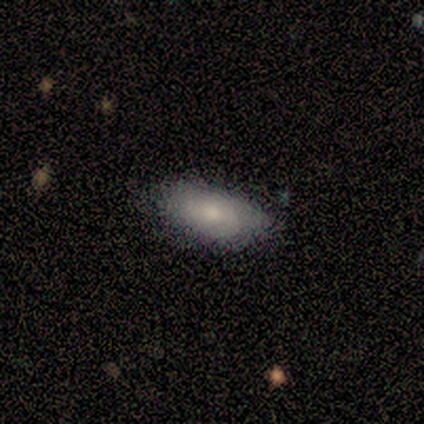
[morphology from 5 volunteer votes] smooth_or_featured: smooth (p=0.60) [alt: featured or disk p=0.40]
how_rounded: in between (p=1.00)
merging: none (p=0.80) [alt: minor disturbance p=0.20]